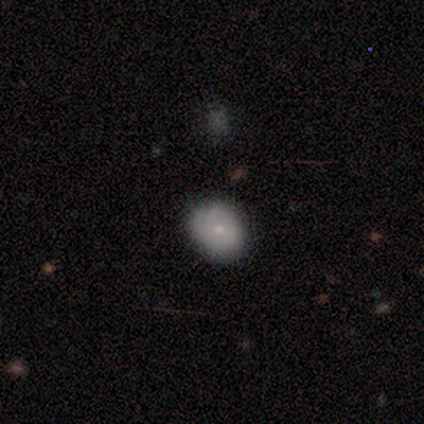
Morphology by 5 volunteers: smooth-or-featured: smooth: 80% | featured or disk: 20% | star or artifact: 0%
  how-rounded: in between: 75% | round: 25% | cigar-shaped: 0%
  merging: none: 80% | minor disturbance: 20% | major disturbance: 0% | merger: 0%